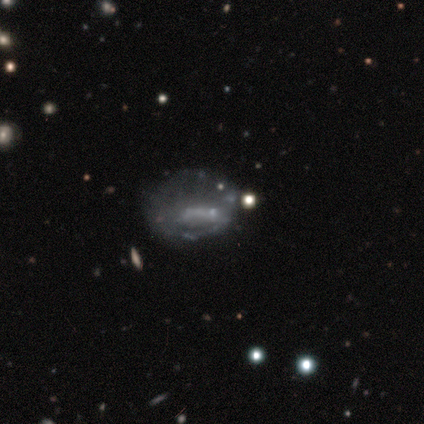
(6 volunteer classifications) This appears to be a star or artifact, not a galaxy (50%).